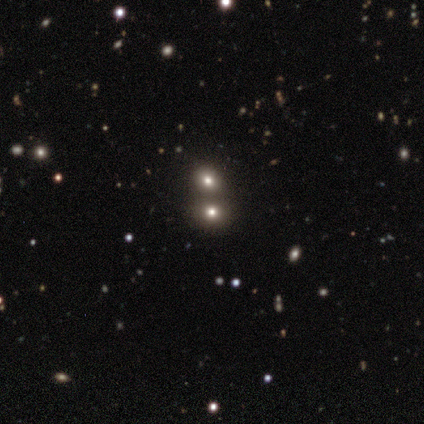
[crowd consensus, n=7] Morphology: type=smooth (86%); roundness=round (67%); merging=none (86%).